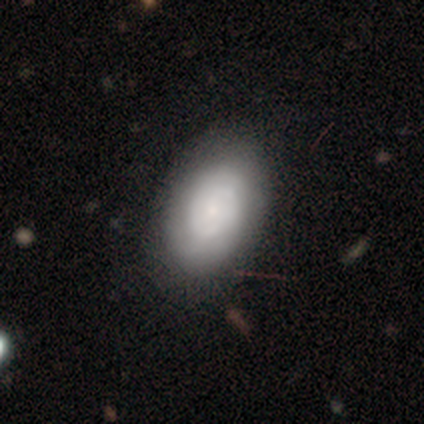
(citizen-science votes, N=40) Smooth or featured? smooth (55%)
How rounded? in between (95%)
Merging? none (70%)